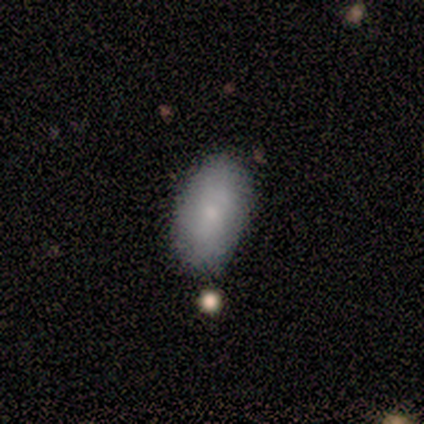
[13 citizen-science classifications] Volunteers were most divided on "merging": none: 77%, minor disturbance: 23%, major disturbance: 0%, merger: 0%. More confident: how rounded — in between (100%); smooth or featured — smooth (85%).